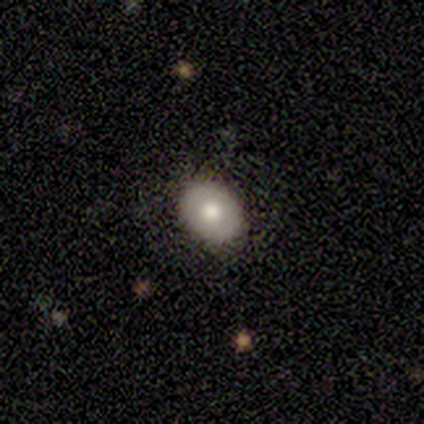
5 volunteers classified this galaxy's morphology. This appears to be a smooth galaxy with no disk features (40%, tied with star or artifact) that is in between round and cigar-shaped (100%). Merging: none (100%).